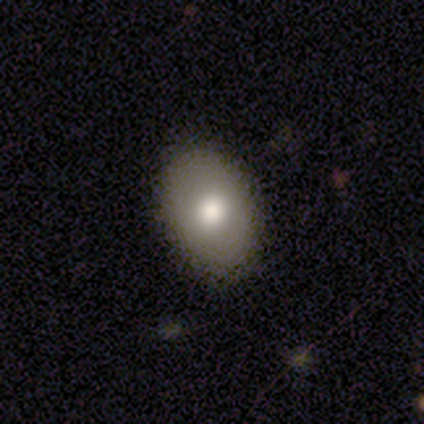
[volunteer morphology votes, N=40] A smooth galaxy with no disk features (72%) that is in between round and cigar-shaped (79%).

Vote fractions:
- Smooth or featured? smooth: 72% / featured or disk: 18% / star or artifact: 10%
- How rounded? in between: 79% / round: 21% / cigar-shaped: 0%
- Merging? none: 92% / minor disturbance: 8% / major disturbance: 0% / merger: 0%